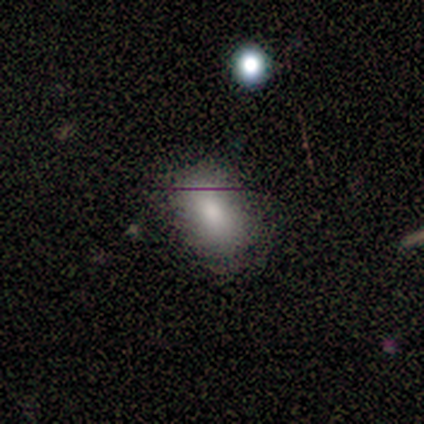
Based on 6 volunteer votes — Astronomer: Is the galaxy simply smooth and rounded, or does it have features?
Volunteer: smooth — 83%.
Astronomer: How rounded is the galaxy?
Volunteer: in between — 100%.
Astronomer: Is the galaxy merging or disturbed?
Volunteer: none — 100%.